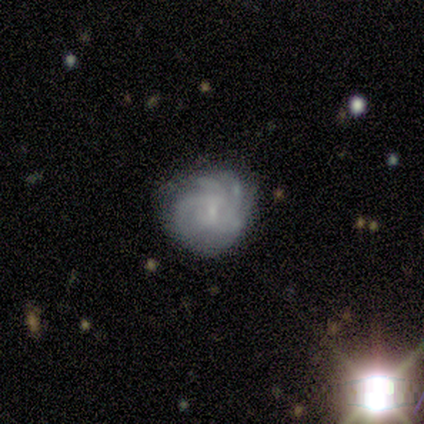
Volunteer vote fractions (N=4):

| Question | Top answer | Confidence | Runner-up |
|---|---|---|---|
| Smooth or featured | featured or disk | 100% | — |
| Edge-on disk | no | 100% | — |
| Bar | weak | 100% | — |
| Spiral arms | yes | 100% | — |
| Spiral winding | tight | 100% | — |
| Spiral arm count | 3 | 50% | 4 (25%) |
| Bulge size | small | 100% | — |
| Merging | none | 100% | — |